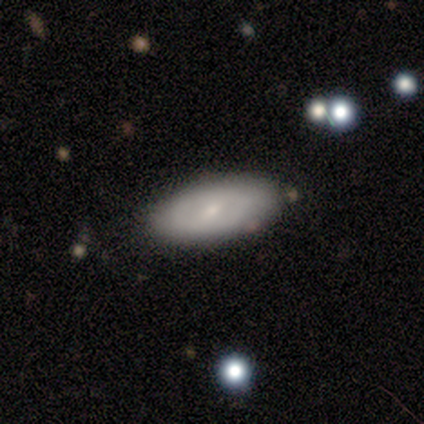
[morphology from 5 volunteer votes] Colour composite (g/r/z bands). It shows a featured or disk galaxy (60%) with a weak bar (67%), no spiral arms (100%) and a small central bulge (67%). Merging: none (60%).